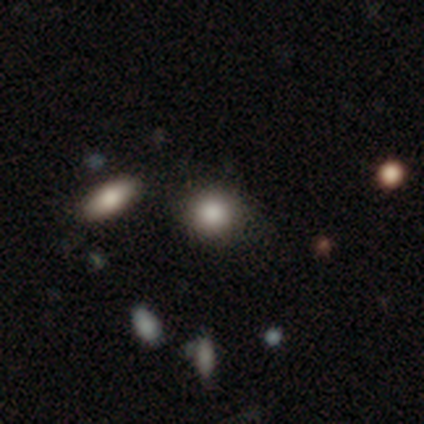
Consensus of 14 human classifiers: Smooth or featured? 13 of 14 (93%) said smooth. How rounded? 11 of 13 (85%) said round. Merging? 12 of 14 (86%) said none.